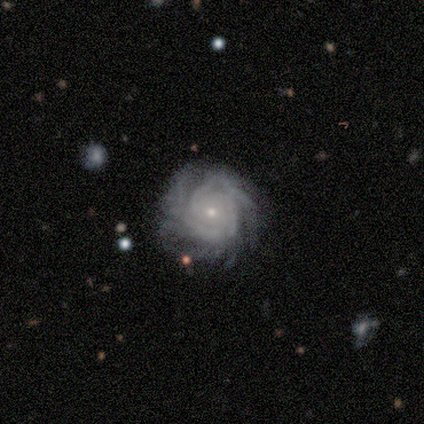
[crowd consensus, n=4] Q: Smooth or featured?
A: featured or disk (100%)
Q: Edge-on disk?
A: no (100%)
Q: Bar?
A: weak (50%); tied with: no (50%)
Q: Spiral arms?
A: yes (50%); tied with: no (50%)
Q: Spiral winding?
A: tight (100%)
Q: Spiral arm count?
A: 2 (50%); tied with: 4 (50%)
Q: Bulge size?
A: small (100%)
Q: Merging?
A: none (75%); runner-up: minor disturbance (25%)